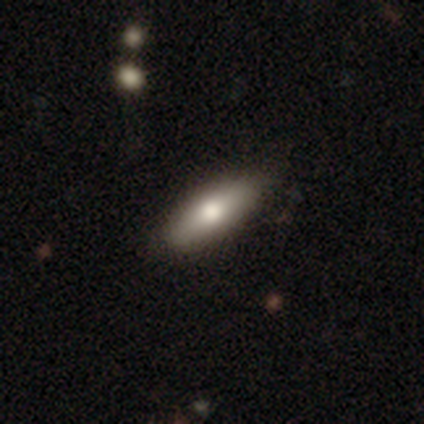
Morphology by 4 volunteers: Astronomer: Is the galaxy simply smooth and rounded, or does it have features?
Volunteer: smooth — 75%.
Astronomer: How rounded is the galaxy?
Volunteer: in between — 67%.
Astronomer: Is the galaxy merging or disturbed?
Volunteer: none — 100%.